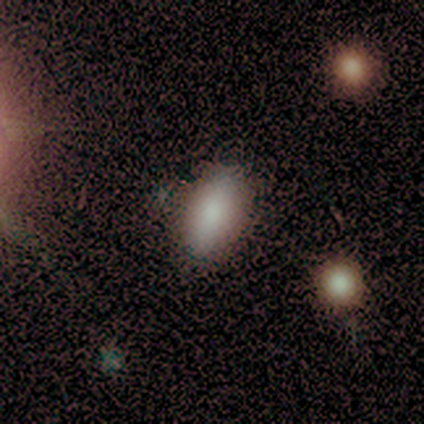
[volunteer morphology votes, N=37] This appears to be a smooth galaxy with no disk features (89%) that is in between round and cigar-shaped (82%). Merging: none (74%).